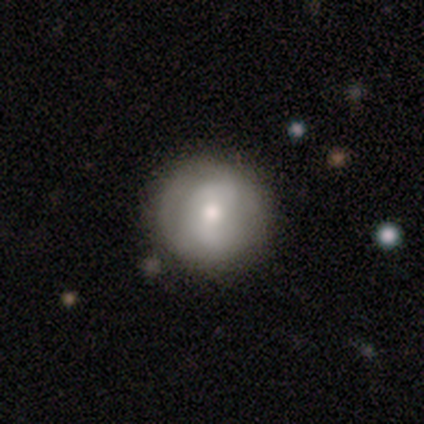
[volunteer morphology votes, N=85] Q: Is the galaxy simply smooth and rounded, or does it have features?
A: smooth — 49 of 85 (58%).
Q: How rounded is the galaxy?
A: round — 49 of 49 (100%).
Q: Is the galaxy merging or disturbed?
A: none — 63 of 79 (80%).